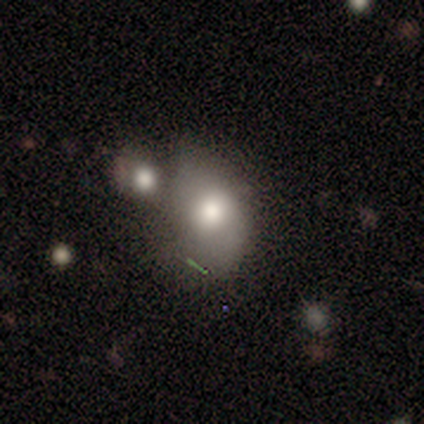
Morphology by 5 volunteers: smooth 60%, featured or disk 40%, star or artifact 0%. Down the decision tree: how rounded — round (67%); merging — minor disturbance (40%, tied with merger).